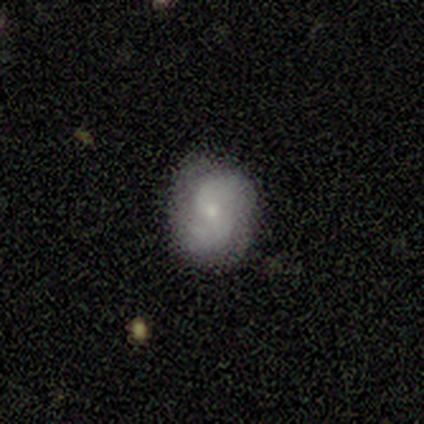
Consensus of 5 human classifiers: Smooth or featured?
  - featured or disk: 80% *
  - star or artifact: 20%
  - smooth: 0%
Edge-on disk?
  - no: 100% *
  - yes: 0%
Bar?
  - no: 75% *
  - weak: 25%
  - strong: 0%
Spiral arms?
  - yes: 100% *
  - no: 0%
Spiral winding?
  - medium: 50% *
  - tight: 25%
  - loose: 25%
Spiral arm count?
  - 2: 75% *
  - 3: 25%
  - 1: 0%
  - 4: 0%
  - more than 4: 0%
  - can't tell: 0%
Bulge size?
  - small: 75% *
  - moderate: 25%
  - dominant: 0%
  - large: 0%
  - none: 0%
Merging?
  - none: 100% *
  - minor disturbance: 0%
  - major disturbance: 0%
  - merger: 0%